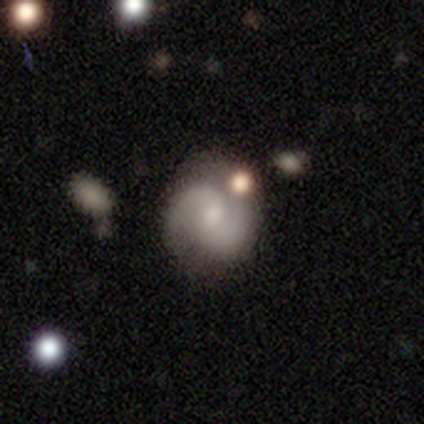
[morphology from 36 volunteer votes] smooth_or_featured: featured or disk (p=0.89) [alt: smooth p=0.08]
disk_edge_on: no (p=1.00)
bar: weak (p=0.53) [alt: no p=0.41]
has_spiral_arms: yes (p=0.97) [alt: no p=0.03]
spiral_winding: medium (p=0.48) [alt: loose p=0.39]
spiral_arm_count: 2 (p=0.97) [alt: can't tell p=0.03]
bulge_size: small (p=0.59) [alt: moderate p=0.22]
merging: none (p=0.74) [alt: minor disturbance p=0.17]